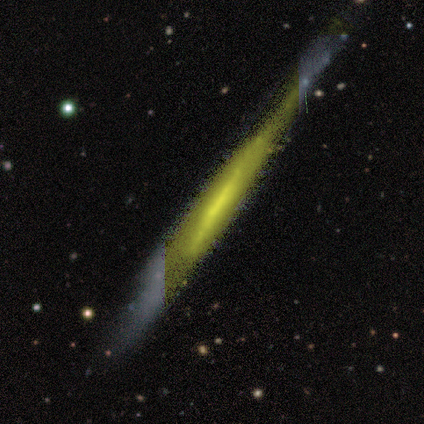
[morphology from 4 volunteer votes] This appears to be a featured or disk galaxy (50%) viewed edge-on (100%) with no central bulge (100%). Merging: none (67%).